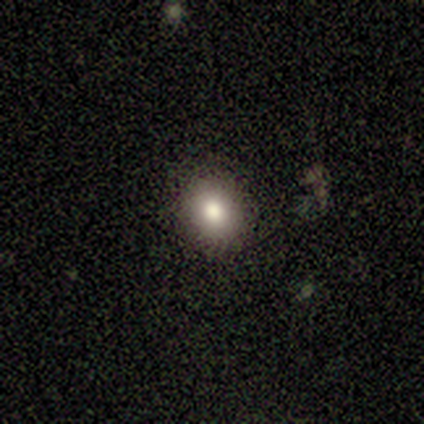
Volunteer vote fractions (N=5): This is clearly a smooth galaxy (80%). How rounded: likely in between (75%). Merging: clearly none (100%).